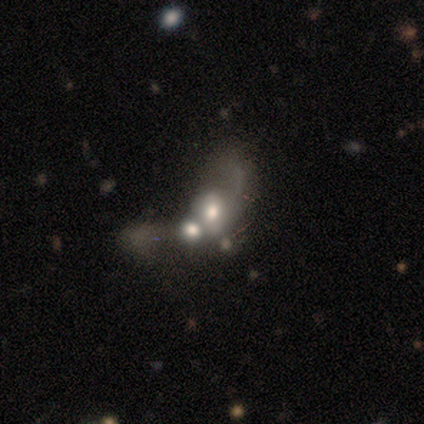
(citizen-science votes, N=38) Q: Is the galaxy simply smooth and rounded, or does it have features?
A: smooth — 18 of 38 (47%).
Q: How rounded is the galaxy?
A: in between — 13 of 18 (72%).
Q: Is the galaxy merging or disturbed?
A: merger — 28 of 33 (85%).